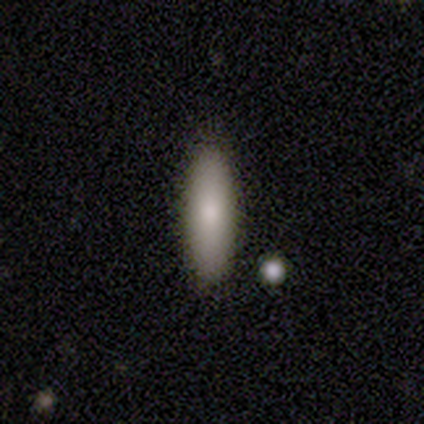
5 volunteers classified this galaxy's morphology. A smooth galaxy with no disk features (60%) that is cigar-shaped (100%).

Vote fractions:
- Smooth or featured? smooth: 60% / featured or disk: 40% / star or artifact: 0%
- How rounded? cigar-shaped: 100% / round: 0% / in between: 0%
- Merging? none: 80% / minor disturbance: 20% / major disturbance: 0% / merger: 0%